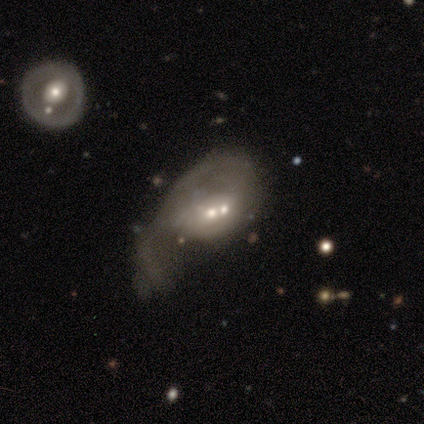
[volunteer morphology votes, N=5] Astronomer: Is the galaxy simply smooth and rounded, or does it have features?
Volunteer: smooth — 60% (runner-up: featured or disk, 40%).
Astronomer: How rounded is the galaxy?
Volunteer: in between — 100%.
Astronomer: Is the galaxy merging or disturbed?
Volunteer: merger — 60% (runner-up: major disturbance, 40%).